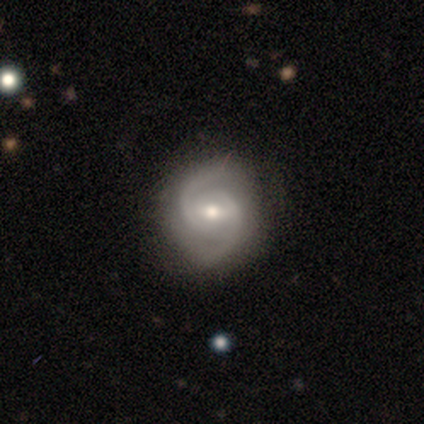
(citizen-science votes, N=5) Volunteers were most divided on "bulge size": moderate: 60%, small: 40%, dominant: 0%, large: 0%, none: 0%. More confident: smooth or featured — featured or disk (100%); edge-on disk — no (100%); spiral arms — yes (100%); spiral arm count — 2 (100%); bar — weak (80%); merging — none (80%); spiral winding — medium (60%).